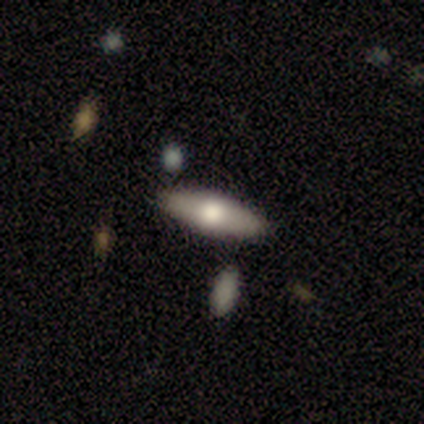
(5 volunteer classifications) This appears to be a featured or disk galaxy (60%) viewed edge-on (67%) with a rounded central bulge (100%). Merging: none (100%).